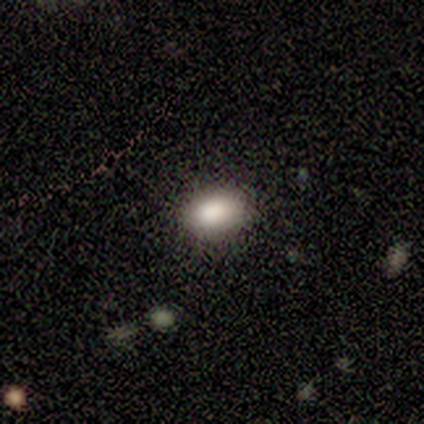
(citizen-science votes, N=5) Volunteers were most divided on "smooth or featured": smooth: 80%, featured or disk: 20%, star or artifact: 0%. More confident: how rounded — in between (100%); merging — none (80%).